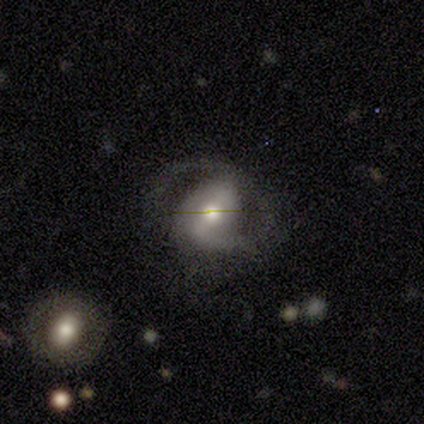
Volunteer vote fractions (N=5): Smooth or featured? featured or disk (80%)
Edge-on disk? no (100%)
Bar? strong (50%)
Spiral arms? yes (75%)
Spiral winding? tight (100%)
Spiral arm count? 2 (67%)
Bulge size? moderate (100%)
Merging? none (60%)